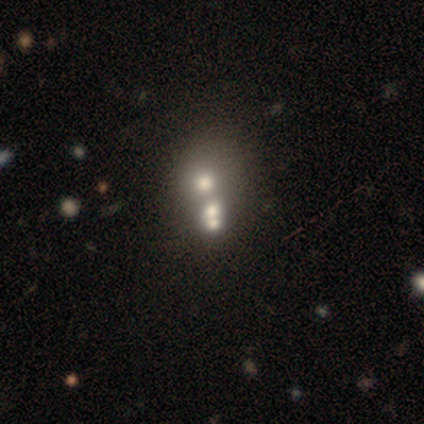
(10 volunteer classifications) smooth 40% (tied), star or artifact 40% (tied), featured or disk 20%. Down the decision tree: how rounded — round (50%, tied with in between); merging — merger (67%).